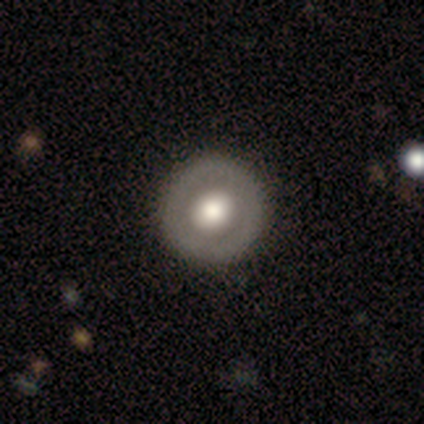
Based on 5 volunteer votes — This appears to be a featured or disk galaxy (80%) with no bar (100%), no spiral arms (100%) and a moderate central bulge (67%). Merging: none (100%).